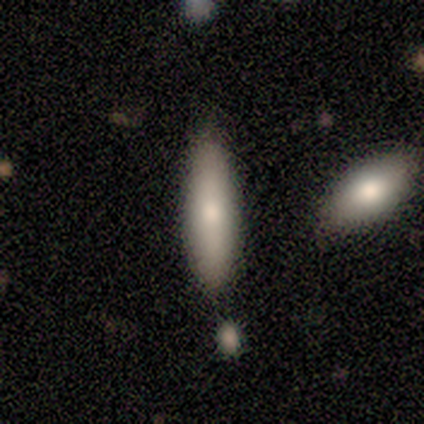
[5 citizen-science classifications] This is likely a smooth galaxy (60%). How rounded: clearly cigar-shaped (100%). Merging: clearly none (100%).